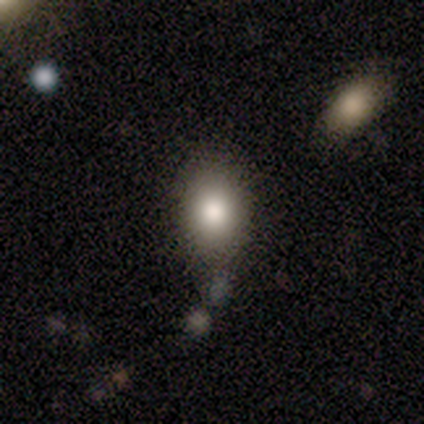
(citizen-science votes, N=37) Smooth or featured?
  - smooth: 76% *
  - featured or disk: 16%
  - star or artifact: 8%
How rounded?
  - in between: 64% *
  - round: 36%
  - cigar-shaped: 0%
Merging?
  - none: 68% *
  - minor disturbance: 21%
  - merger: 9%
  - major disturbance: 3%